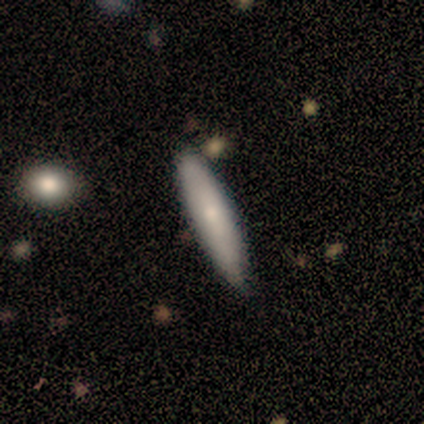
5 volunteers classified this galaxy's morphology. A smooth galaxy with no disk features (60%) that is cigar-shaped (67%). Merging: none (80%).